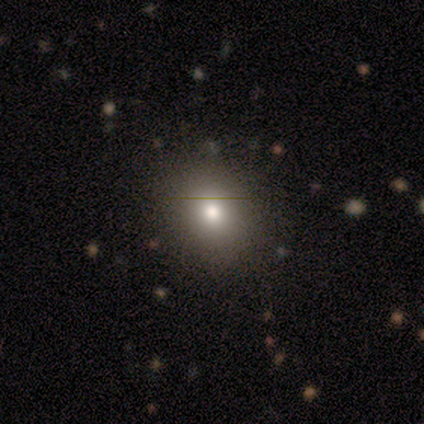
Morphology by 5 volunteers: A smooth galaxy with no disk features (80%) that is round (75%). Merging: none (50%).